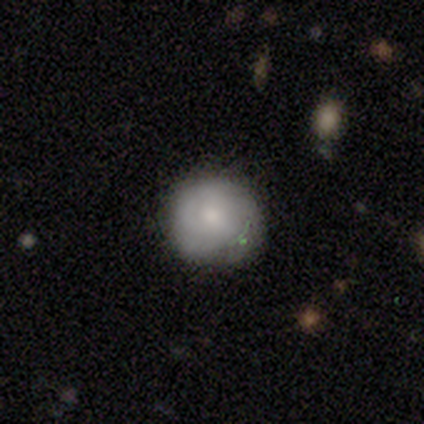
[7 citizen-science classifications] Smooth or featured? smooth (71%)
How rounded? round (80%)
Merging? none (67%)